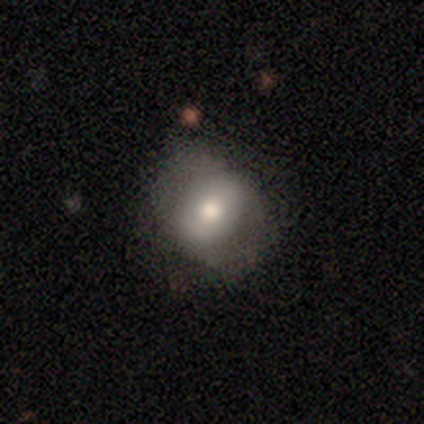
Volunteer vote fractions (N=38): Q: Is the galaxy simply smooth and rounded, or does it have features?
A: smooth — 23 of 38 (61%).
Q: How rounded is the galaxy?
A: round — 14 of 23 (61%).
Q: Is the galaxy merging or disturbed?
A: none — 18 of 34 (53%).